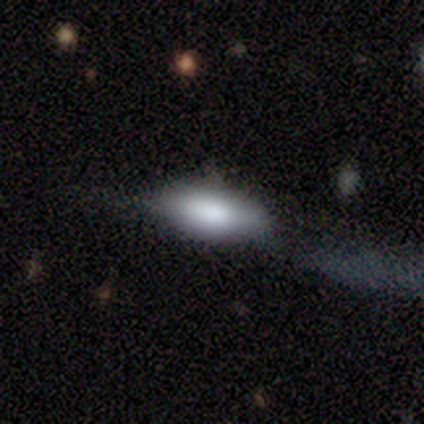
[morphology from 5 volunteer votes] Smooth or featured? 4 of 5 (80%) said smooth. How rounded? 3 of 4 (75%) said in between. Merging? 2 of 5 (40%, tied with major disturbance) said minor disturbance.